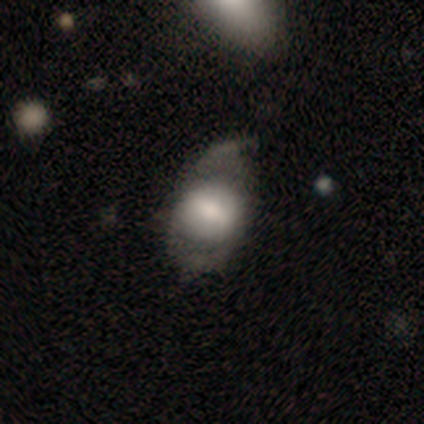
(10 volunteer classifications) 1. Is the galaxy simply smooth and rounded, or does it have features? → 90% smooth, 10% featured or disk, 0% star or artifact.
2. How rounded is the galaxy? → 67% in between, 33% round, 0% cigar-shaped.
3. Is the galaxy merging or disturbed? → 50% minor disturbance, 30% major disturbance, 20% none, 0% merger.